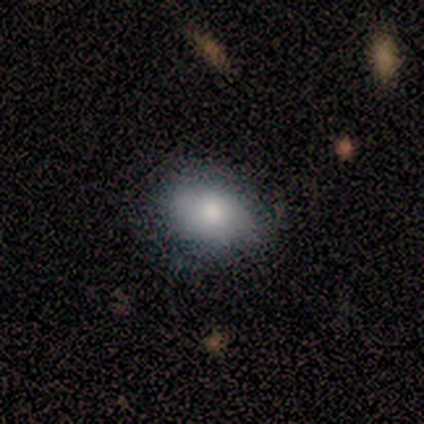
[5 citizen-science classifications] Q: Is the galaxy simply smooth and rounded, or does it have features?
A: smooth — 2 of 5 (40%, tied with featured or disk).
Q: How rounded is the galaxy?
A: in between — 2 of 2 (100%).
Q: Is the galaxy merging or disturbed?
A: none — 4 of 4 (100%).